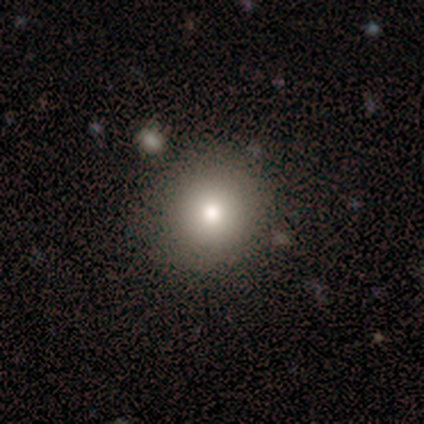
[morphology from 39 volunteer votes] type=smooth (90%); roundness=round (94%); merging=none (89%).